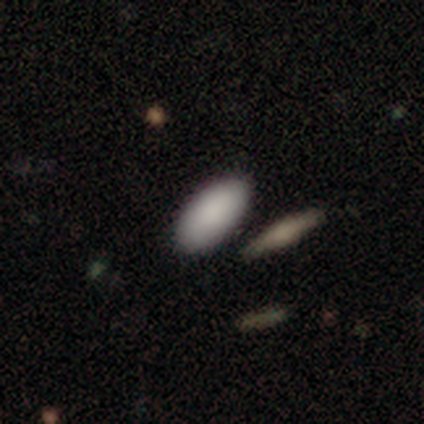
This is clearly a smooth galaxy (80%). How rounded: clearly in between (100%). Merging: clearly none (100%).